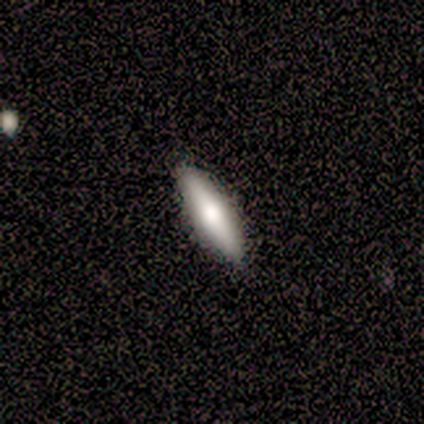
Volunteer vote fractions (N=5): smooth-or-featured: smooth: 100% | featured or disk: 0% | star or artifact: 0%
  how-rounded: cigar-shaped: 80% | in between: 20% | round: 0%
  merging: none: 100% | minor disturbance: 0% | major disturbance: 0% | merger: 0%